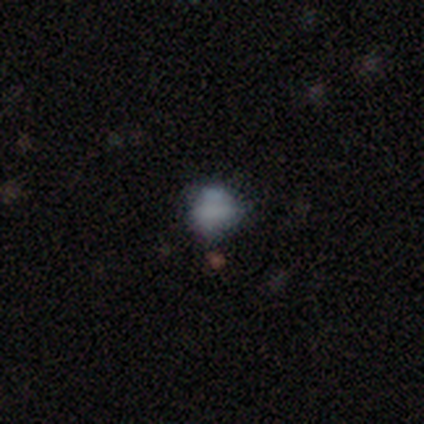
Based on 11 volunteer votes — smooth 55%, featured or disk 27%, star or artifact 18%. Down the decision tree: how rounded — round (50%, tied with in between); merging — none (44%).